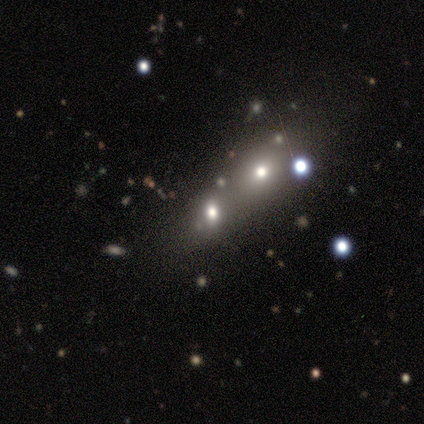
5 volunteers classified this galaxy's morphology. Q: Smooth or featured?
A: smooth (60%); runner-up: featured or disk (20%)
Q: How rounded?
A: in between (100%)
Q: Merging?
A: merger (75%); runner-up: major disturbance (25%)